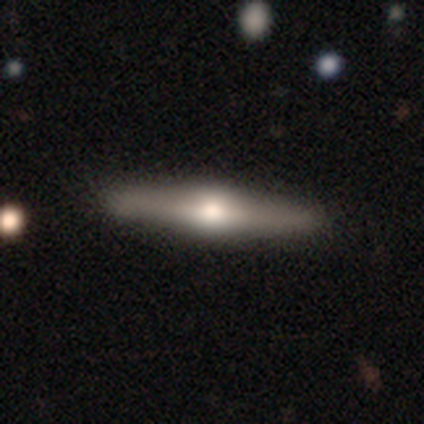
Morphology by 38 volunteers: This appears to be a featured or disk galaxy (79%) viewed edge-on (100%) with a rounded central bulge (93%). Merging: none (54%).